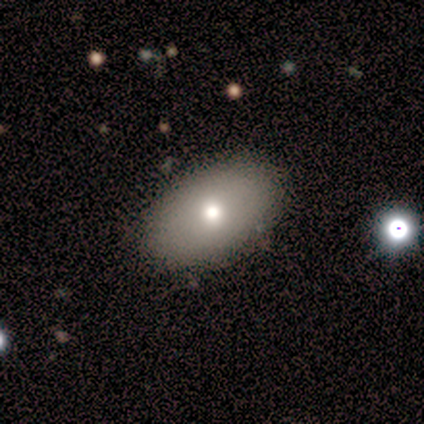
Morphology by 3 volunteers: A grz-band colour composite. It shows a smooth galaxy with no disk features (100%) that is in between round and cigar-shaped (67%). Merging: none (100%).